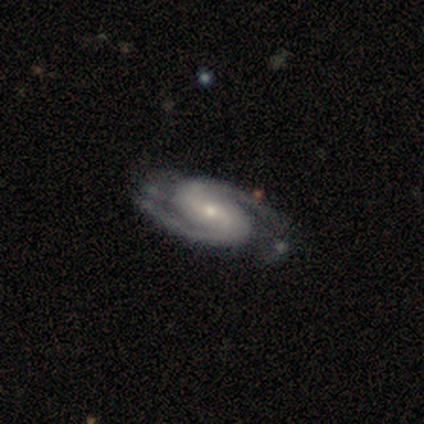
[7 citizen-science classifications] Morphology: type=featured or disk (86%); edge-on=no (100%); bar=weak (67%); spiral arms=yes (100%); winding=tight (67%); arm count=2 (100%); bulge=small (67%); merging=none (83%).